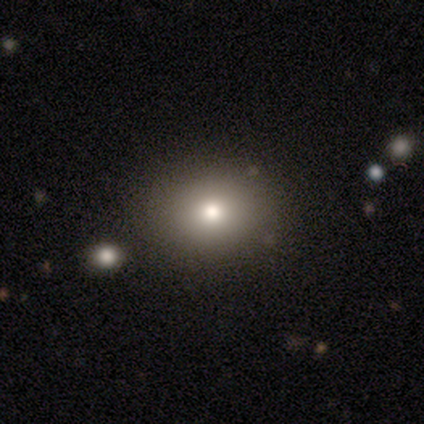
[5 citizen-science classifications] Smooth or featured: smooth — 80% (star or artifact — 20%)
How rounded: round — 50% (tied with in between — 50%)
Merging: none — 50% (tied with minor disturbance — 50%)